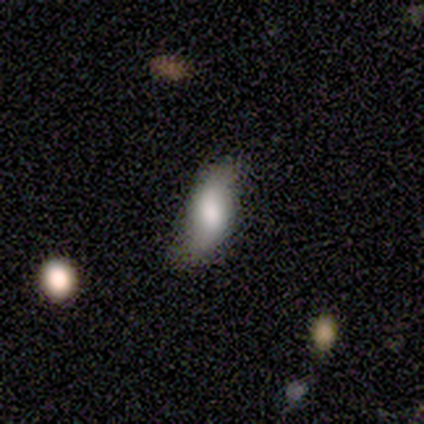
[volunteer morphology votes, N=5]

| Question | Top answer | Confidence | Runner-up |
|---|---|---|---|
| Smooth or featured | smooth | 40% | tied: featured or disk (40%) |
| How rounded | in between | 100% | — |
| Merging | none | 75% | minor disturbance (25%) |